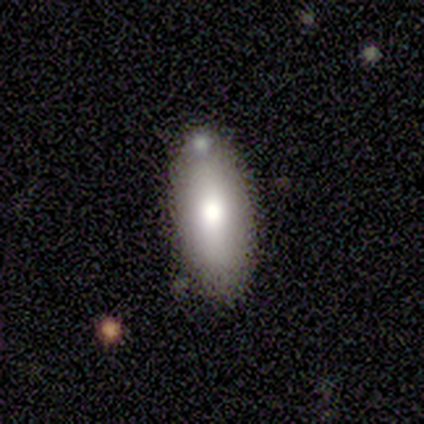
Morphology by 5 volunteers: smooth 60%, featured or disk 40%, star or artifact 0%. Down the decision tree: how rounded — in between (100%); merging — none (100%).